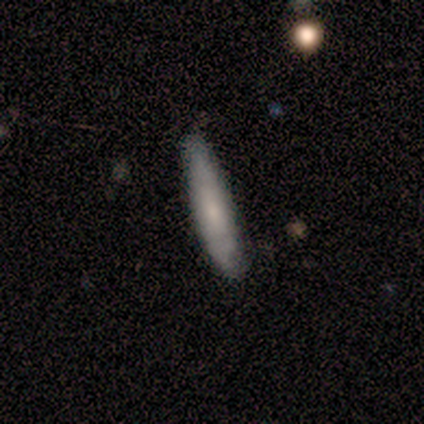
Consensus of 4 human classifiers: Smooth or featured?
  - smooth: 50% * (tied)
  - featured or disk: 50% * (tied)
  - star or artifact: 0%
How rounded?
  - cigar-shaped: 100% *
  - round: 0%
  - in between: 0%
Merging?
  - none: 75% *
  - minor disturbance: 25%
  - major disturbance: 0%
  - merger: 0%